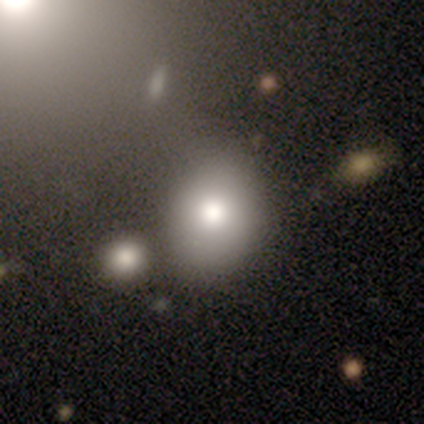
Smooth or featured: smooth — 59% (star or artifact — 22%)
How rounded: in between — 62% (round — 38%)
Merging: none — 43% (minor disturbance — 29%)